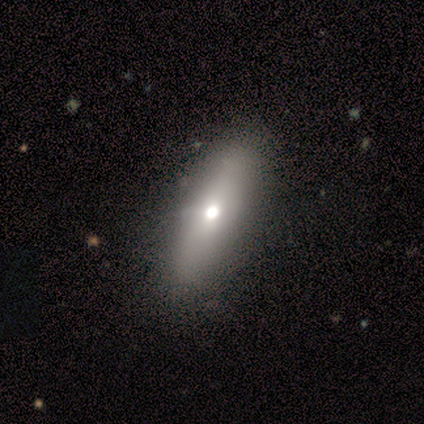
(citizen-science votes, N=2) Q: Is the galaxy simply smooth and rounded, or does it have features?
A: featured or disk — 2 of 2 (100%).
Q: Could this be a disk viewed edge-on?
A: yes — 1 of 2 (50%, tied with no).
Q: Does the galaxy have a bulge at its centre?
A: none — 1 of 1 (100%).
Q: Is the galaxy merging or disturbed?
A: none — 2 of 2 (100%).